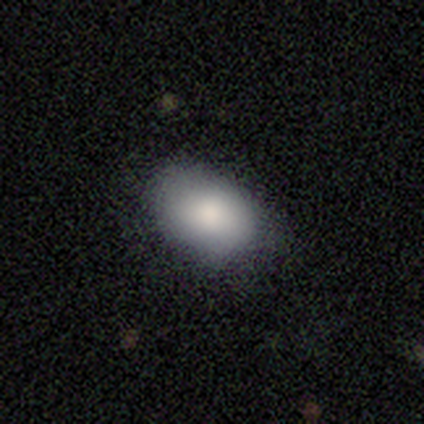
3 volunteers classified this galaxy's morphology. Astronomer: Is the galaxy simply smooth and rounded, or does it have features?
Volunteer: smooth — 100%.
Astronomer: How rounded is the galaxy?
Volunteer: in between — 100%.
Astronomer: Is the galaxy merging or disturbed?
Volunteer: none — 100%.